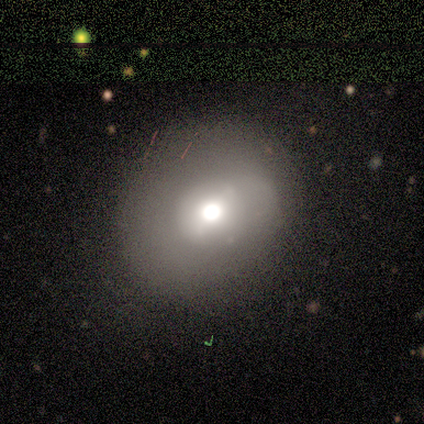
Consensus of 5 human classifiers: Volunteers were most divided on "smooth or featured" (2-way tie): smooth: 40%, featured or disk: 40%, star or artifact: 20%. More confident: how rounded — round (100%); merging — none (75%).